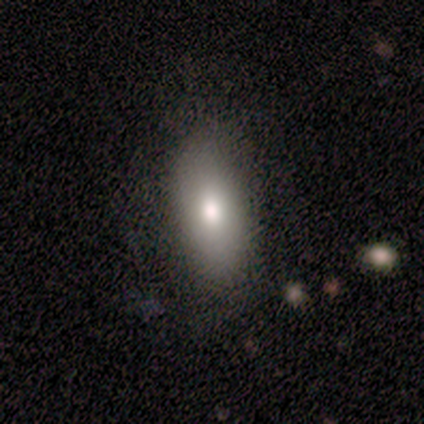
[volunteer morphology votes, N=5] Overall: smooth (60%; featured or disk 20%). How rounded: cigar-shaped (67%; in between 33%). Merging: none (100%).